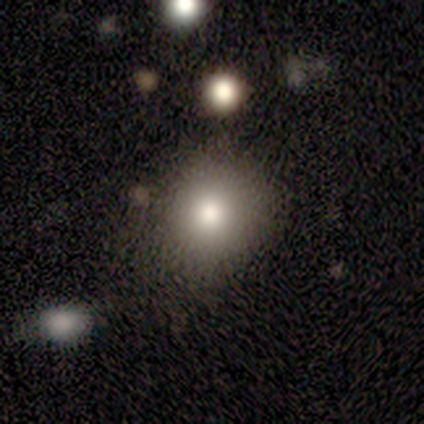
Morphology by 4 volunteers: smooth 75%, featured or disk 25%, star or artifact 0%. Down the decision tree: how rounded — round (67%); merging — none (50%, tied with minor disturbance).